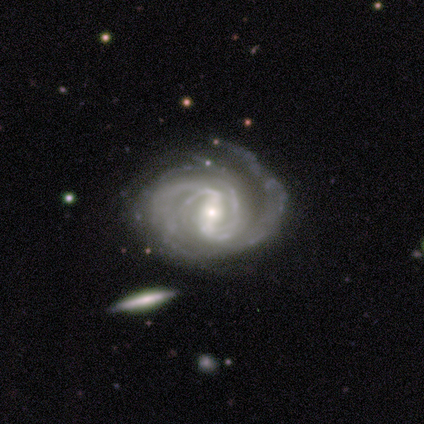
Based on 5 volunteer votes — Smooth or featured?
  - featured or disk: 100% *
  - smooth: 0%
  - star or artifact: 0%
Edge-on disk?
  - no: 100% *
  - yes: 0%
Bar?
  - strong: 80% *
  - weak: 20%
  - no: 0%
Spiral arms?
  - yes: 100% *
  - no: 0%
Spiral winding?
  - tight: 60% *
  - medium: 40%
  - loose: 0%
Spiral arm count?
  - 4: 60% *
  - 1: 20%
  - 2: 20%
  - 3: 0%
  - more than 4: 0%
  - can't tell: 0%
Bulge size?
  - moderate: 80% *
  - large: 20%
  - dominant: 0%
  - small: 0%
  - none: 0%
Merging?
  - none: 60% *
  - minor disturbance: 40%
  - major disturbance: 0%
  - merger: 0%